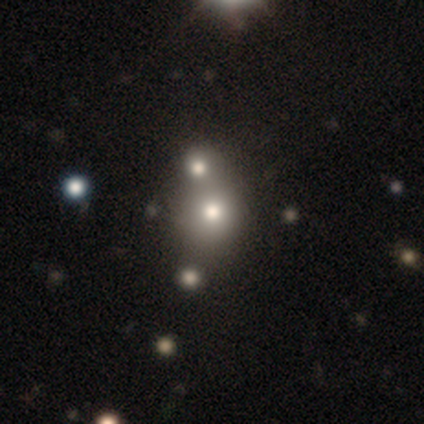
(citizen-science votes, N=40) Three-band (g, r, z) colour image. It shows a smooth galaxy with no disk features (55%) that is round (95%). Merging: none (45%, tied with merger).